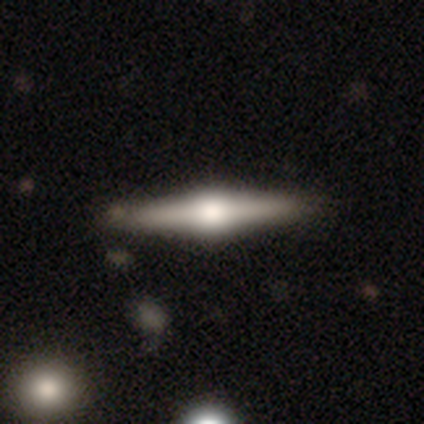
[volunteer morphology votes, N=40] Volunteers were most divided on "smooth or featured": featured or disk: 78%, smooth: 15%, star or artifact: 8%. More confident: edge-on disk — yes (97%); merging — none (95%); edge-on bulge — rounded (93%).